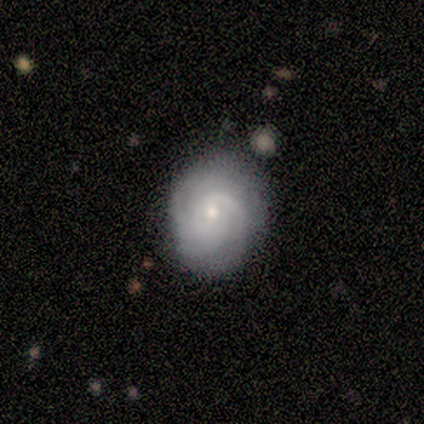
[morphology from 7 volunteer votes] Q: Smooth or featured?
A: featured or disk (100%)
Q: Edge-on disk?
A: no (100%)
Q: Bar?
A: no (71%); runner-up: weak (29%)
Q: Spiral arms?
A: yes (100%)
Q: Spiral winding?
A: tight (71%); runner-up: medium (29%)
Q: Spiral arm count?
A: 4 (57%); runner-up: 2 (14%)
Q: Bulge size?
A: small (57%); runner-up: dominant (14%)
Q: Merging?
A: none (86%); runner-up: minor disturbance (14%)